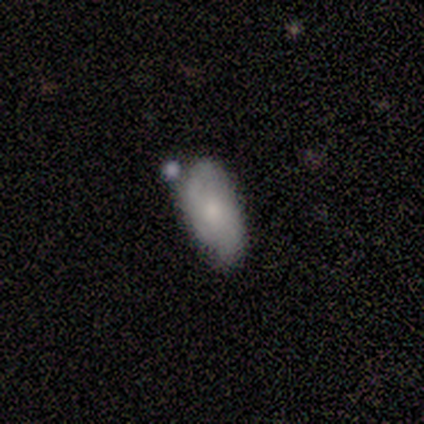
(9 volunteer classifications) smooth_or_featured: featured or disk (p=0.56) [alt: smooth p=0.44]
disk_edge_on: no (p=0.80) [alt: yes p=0.20]
bar: no (p=0.75) [alt: weak p=0.25]
has_spiral_arms: yes (p=1.00)
spiral_winding: tight (p=0.50) [tied with: medium p=0.50]
spiral_arm_count: 2 (p=0.75) [alt: can't tell p=0.25]
bulge_size: moderate (p=0.50) [alt: small p=0.25]
merging: none (p=0.56) [alt: minor disturbance p=0.22]